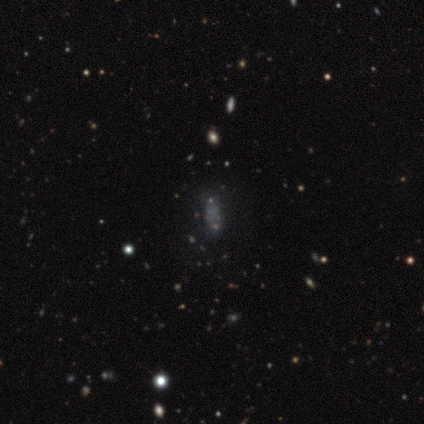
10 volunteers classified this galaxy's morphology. smooth-or-featured: smooth: 40% | featured or disk: 30% | star or artifact: 30%
  how-rounded: in between: 75% | cigar-shaped: 25% | round: 0%
  merging: none: 71% | major disturbance: 29% | minor disturbance: 0% | merger: 0%